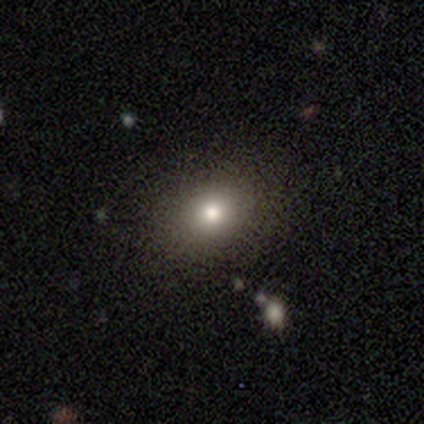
Q: Smooth or featured?
A: smooth (80%); runner-up: featured or disk (20%)
Q: How rounded?
A: round (50%); tied with: in between (50%)
Q: Merging?
A: none (100%)